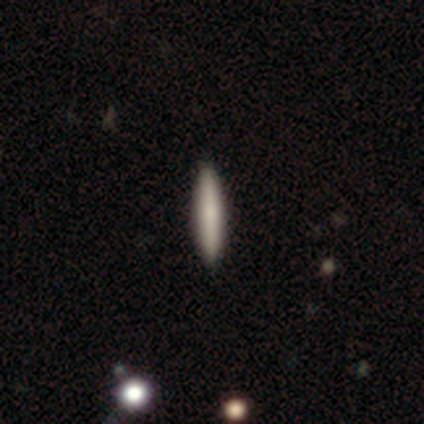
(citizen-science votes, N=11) smooth 73%, featured or disk 27%, star or artifact 0%. Down the decision tree: how rounded — cigar-shaped (100%); merging — none (100%).